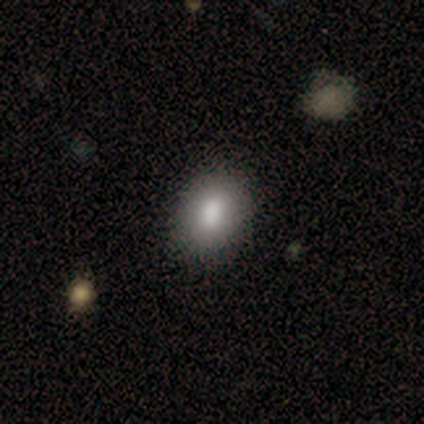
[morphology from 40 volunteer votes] Smooth or featured: smooth — 82% (star or artifact — 10%)
How rounded: in between — 67% (round — 33%)
Merging: none — 83% (minor disturbance — 17%)